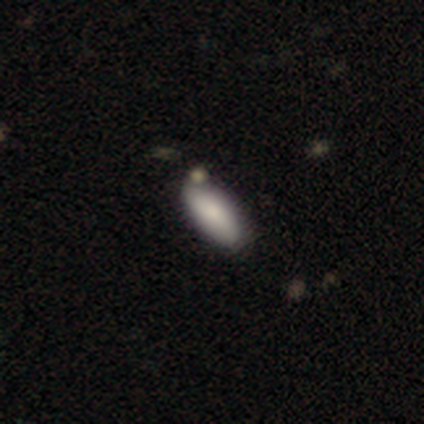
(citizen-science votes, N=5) smooth 80%, featured or disk 20%, star or artifact 0%. Down the decision tree: how rounded — in between (75%); merging — none (80%).